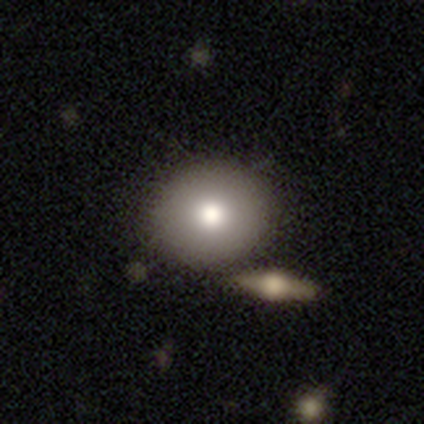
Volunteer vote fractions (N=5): A smooth galaxy with no disk features (60%) that is round (67%). Merging: none (100%).